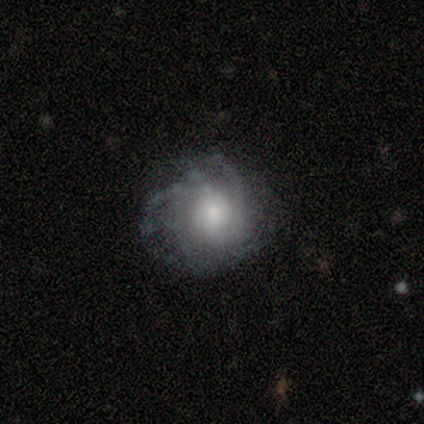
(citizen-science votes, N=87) Smooth or featured: featured or disk — 60% (smooth — 30%)
Edge-on disk: no — 98% (yes — 2%)
Bar: no — 69% (weak — 29%)
Spiral arms: yes — 94% (no — 6%)
Spiral winding: tight — 62% (medium — 23%)
Spiral arm count: can't tell — 52% (more than 4 — 17%)
Bulge size: moderate — 41% (small — 37%)
Merging: none — 64% (minor disturbance — 18%)